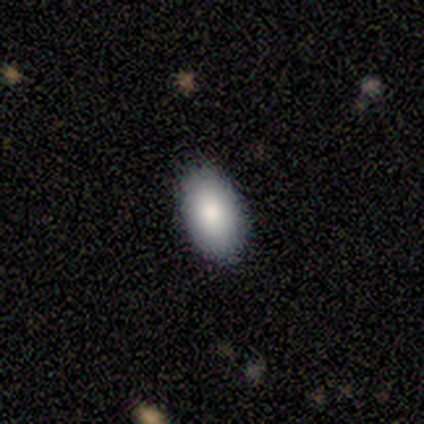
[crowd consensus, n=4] A smooth galaxy with no disk features (100%) that is in between round and cigar-shaped (100%).

Vote fractions:
- Smooth or featured? smooth: 100% / featured or disk: 0% / star or artifact: 0%
- How rounded? in between: 100% / round: 0% / cigar-shaped: 0%
- Merging? none: 100% / minor disturbance: 0% / major disturbance: 0% / merger: 0%